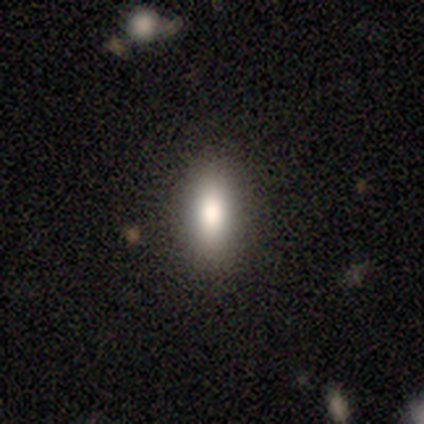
A smooth galaxy with no disk features (82%) that is in between round and cigar-shaped (71%).

Vote fractions:
- Smooth or featured? smooth: 82% / featured or disk: 11% / star or artifact: 8%
- How rounded? in between: 71% / cigar-shaped: 23% / round: 6%
- Merging? none: 89% / minor disturbance: 6% / major disturbance: 6% / merger: 0%